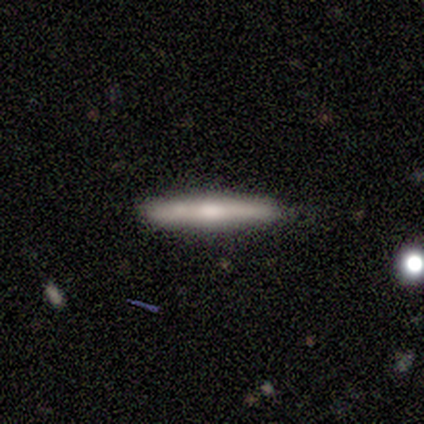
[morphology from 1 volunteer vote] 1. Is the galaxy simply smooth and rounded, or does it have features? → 100% smooth, 0% featured or disk, 0% star or artifact.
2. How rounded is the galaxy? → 100% cigar-shaped, 0% round, 0% in between.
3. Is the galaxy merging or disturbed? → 100% none, 0% minor disturbance, 0% major disturbance, 0% merger.